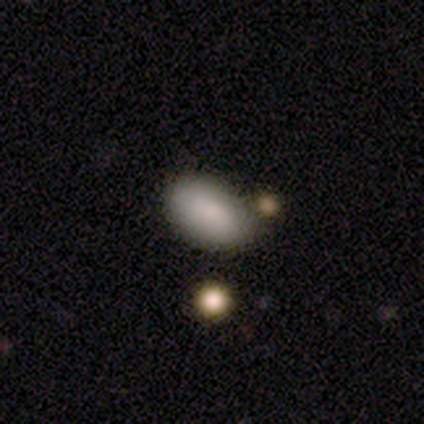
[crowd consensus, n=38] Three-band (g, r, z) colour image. It shows a smooth galaxy with no disk features (84%) that is in between round and cigar-shaped (91%). Merging: none (56%).